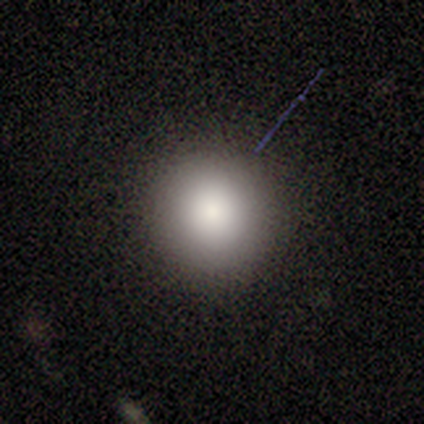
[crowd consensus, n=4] Smooth or featured? 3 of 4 (75%) said smooth. How rounded? 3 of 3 (100%) said round. Merging? 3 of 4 (75%) said none.